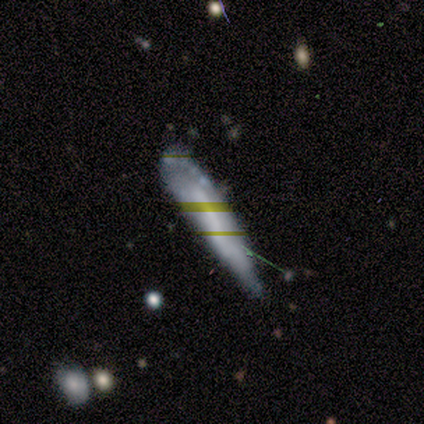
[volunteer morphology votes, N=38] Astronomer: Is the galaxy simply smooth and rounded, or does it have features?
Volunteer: smooth — 42% (runner-up: featured or disk, 29%).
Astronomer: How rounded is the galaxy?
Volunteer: cigar-shaped — 75%.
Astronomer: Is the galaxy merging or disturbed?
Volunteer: minor disturbance — 59%.